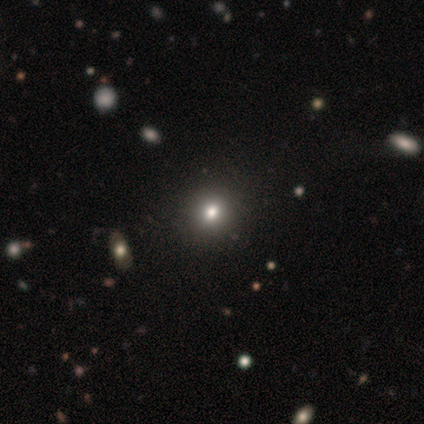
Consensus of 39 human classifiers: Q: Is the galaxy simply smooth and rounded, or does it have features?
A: smooth — 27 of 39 (69%).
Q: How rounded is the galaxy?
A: round — 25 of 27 (93%).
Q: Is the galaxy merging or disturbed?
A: none — 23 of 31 (74%).